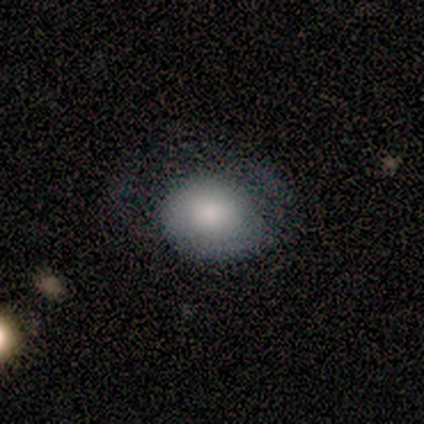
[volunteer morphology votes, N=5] A smooth galaxy with no disk features (60%) that is round (67%).

Vote fractions:
- Smooth or featured? smooth: 60% / featured or disk: 20% / star or artifact: 20%
- How rounded? round: 67% / in between: 33% / cigar-shaped: 0%
- Merging? major disturbance: 75% / minor disturbance: 25% / none: 0% / merger: 0%